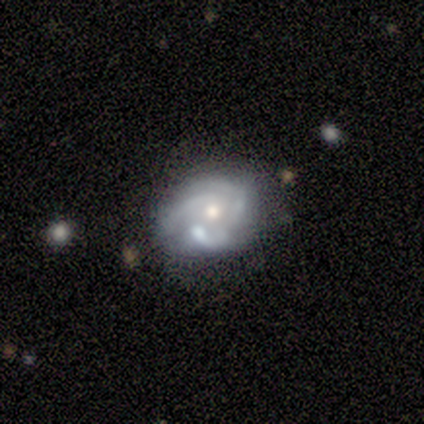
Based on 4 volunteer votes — smooth 50% (tied), featured or disk 50% (tied), star or artifact 0%. Down the decision tree: how rounded — round (100%); merging — none (75%).